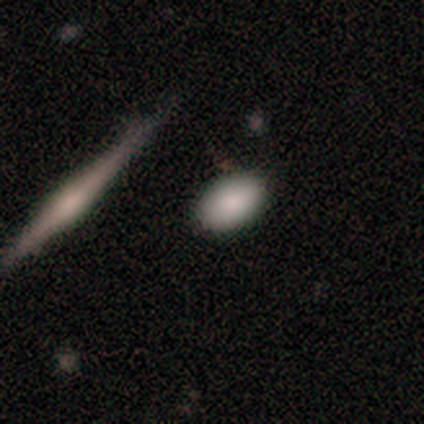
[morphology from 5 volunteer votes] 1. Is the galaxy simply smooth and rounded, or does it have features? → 60% smooth, 40% star or artifact, 0% featured or disk.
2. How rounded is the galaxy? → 100% in between, 0% round, 0% cigar-shaped.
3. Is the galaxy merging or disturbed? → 100% none, 0% minor disturbance, 0% major disturbance, 0% merger.